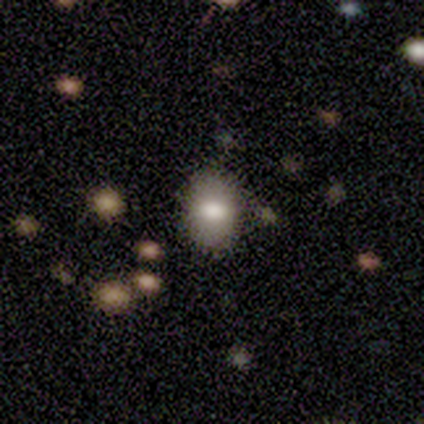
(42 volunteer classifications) smooth 62%, featured or disk 24%, star or artifact 14%. Down the decision tree: how rounded — in between (77%); merging — none (94%).